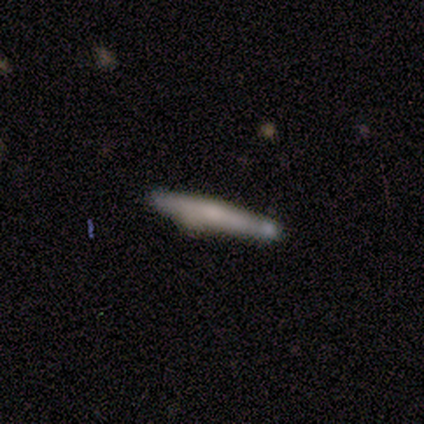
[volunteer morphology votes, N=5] Q: Smooth or featured?
A: smooth (80%); runner-up: featured or disk (20%)
Q: How rounded?
A: cigar-shaped (100%)
Q: Merging?
A: none (100%)